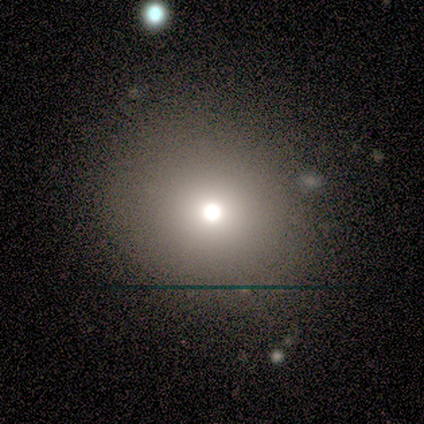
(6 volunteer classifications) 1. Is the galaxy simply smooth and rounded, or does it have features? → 83% smooth, 17% featured or disk, 0% star or artifact.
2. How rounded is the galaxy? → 100% round, 0% in between, 0% cigar-shaped.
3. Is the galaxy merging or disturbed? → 100% none, 0% minor disturbance, 0% major disturbance, 0% merger.